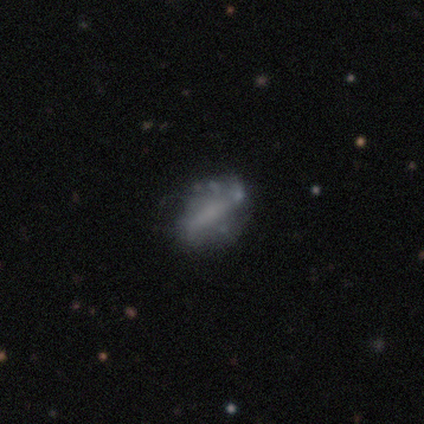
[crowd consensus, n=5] Q: Smooth or featured?
A: smooth (60%); runner-up: featured or disk (40%)
Q: How rounded?
A: in between (100%)
Q: Merging?
A: none (60%); runner-up: minor disturbance (20%)